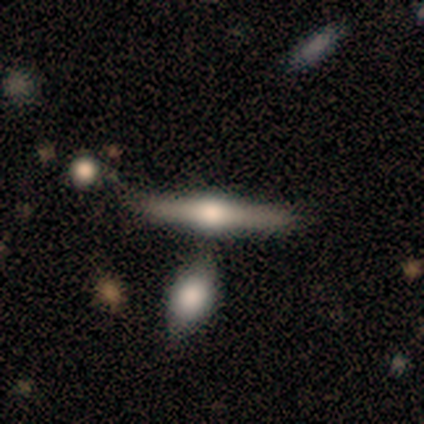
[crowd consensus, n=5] Smooth or featured? 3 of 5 (60%) said smooth. How rounded? 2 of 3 (67%) said cigar-shaped. Merging? 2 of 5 (40%, tied with merger) said minor disturbance.